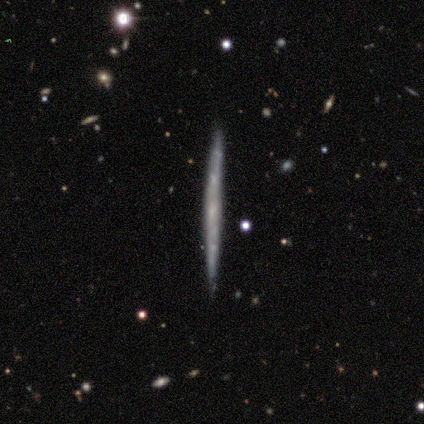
Smooth or featured?
  - featured or disk: 80% *
  - smooth: 20%
  - star or artifact: 0%
Edge-on disk?
  - yes: 100% *
  - no: 0%
Edge-on bulge?
  - none: 100% *
  - boxy: 0%
  - rounded: 0%
Merging?
  - none: 100% *
  - minor disturbance: 0%
  - major disturbance: 0%
  - merger: 0%